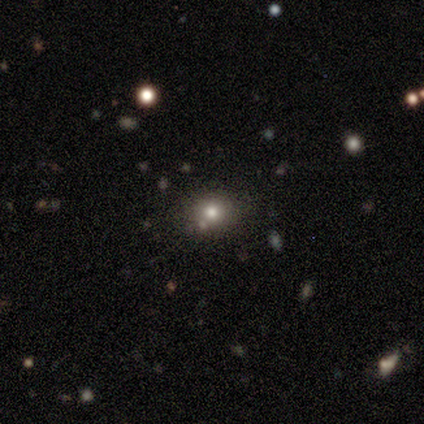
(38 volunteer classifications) Volunteers were most divided on "smooth or featured": smooth: 66%, star or artifact: 29%, featured or disk: 5%. More confident: how rounded — round (80%); merging — none (78%).